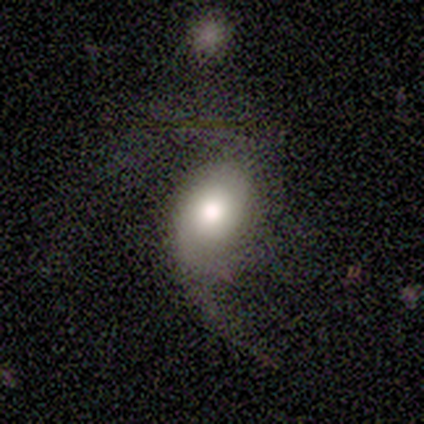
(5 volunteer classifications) smooth-or-featured: smooth: 60% | featured or disk: 40% | star or artifact: 0%
  how-rounded: in between: 100% | round: 0% | cigar-shaped: 0%
  merging: major disturbance: 80% | none: 20% | minor disturbance: 0% | merger: 0%